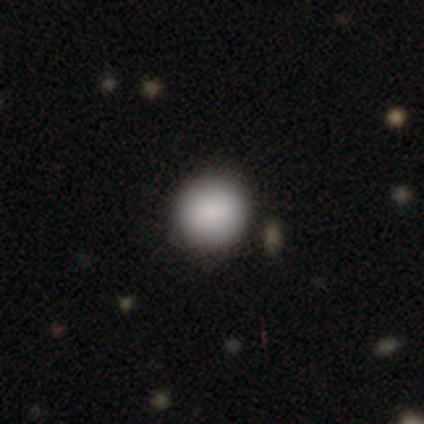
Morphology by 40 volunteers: This is clearly a smooth galaxy (88%). How rounded: clearly round (89%). Merging: clearly none (94%).